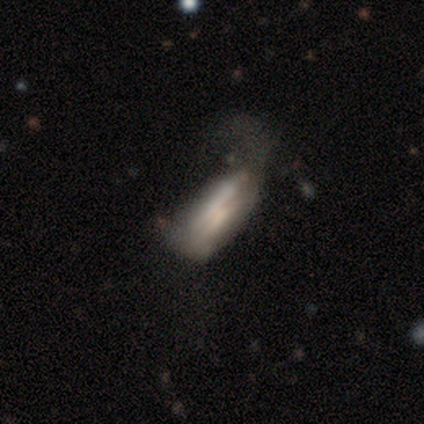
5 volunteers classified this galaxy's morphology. featured or disk 60%, smooth 40%, star or artifact 0%. Down the decision tree: edge-on disk — yes (67%); edge-on bulge — boxy (50%, tied with none); merging — major disturbance (80%).